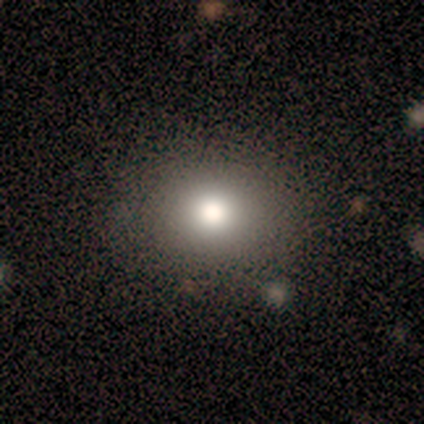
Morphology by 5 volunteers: This is likely a smooth galaxy (60%). How rounded: clearly round (100%). Merging: clearly none (100%).